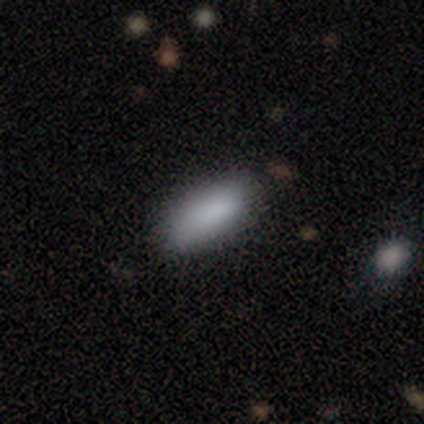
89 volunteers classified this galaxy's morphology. Volunteers were most divided on "how rounded": in between: 74%, cigar-shaped: 26%, round: 0%. More confident: smooth or featured — smooth (91%); merging — none (79%).